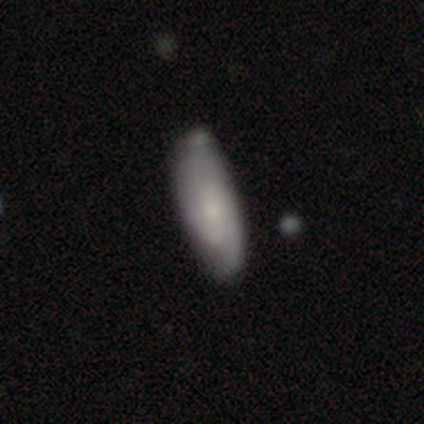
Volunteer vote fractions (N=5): Morphology: type=featured or disk (60%); edge-on=no (100%); bar=weak (67%); spiral arms=yes (100%); winding=tight (33%, tied with medium and loose); arm count=2 (33%, tied with 3 and can't tell); bulge=moderate (67%); merging=minor disturbance (60%).